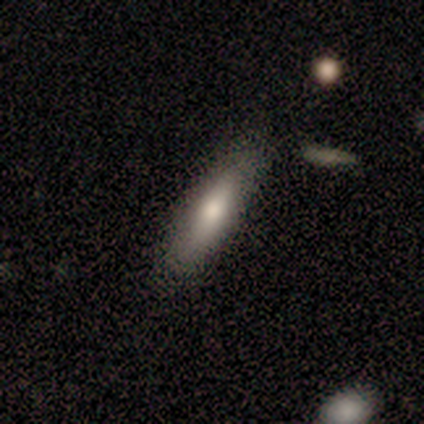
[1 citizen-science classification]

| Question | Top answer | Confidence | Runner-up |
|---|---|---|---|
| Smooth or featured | smooth | 100% | — |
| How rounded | cigar-shaped | 100% | — |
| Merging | none | 100% | — |